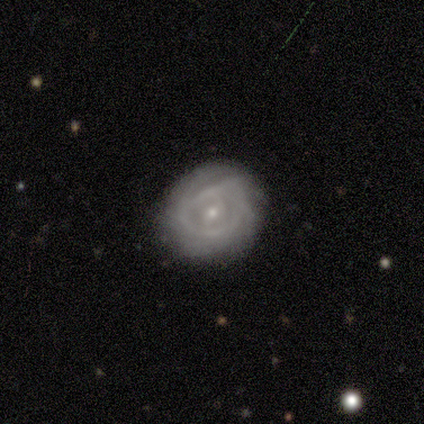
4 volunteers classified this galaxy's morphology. featured or disk 100%, smooth 0%, star or artifact 0%. Down the decision tree: edge-on disk — no (100%); bar — weak (50%, tied with no); spiral arms — yes (75%); spiral arm count — can't tell (67%); spiral winding — medium (67%); bulge size — small (100%); merging — none (75%).